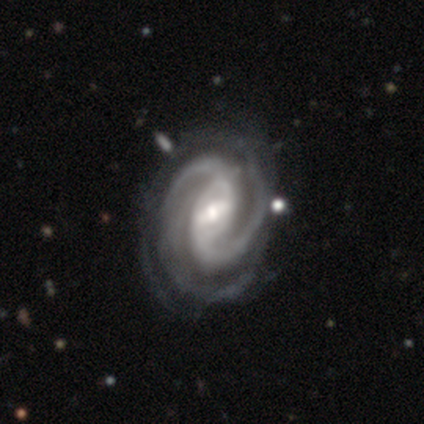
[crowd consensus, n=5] Smooth or featured? featured or disk (100%)
Edge-on disk? no (100%)
Bar? weak (60%)
Spiral arms? yes (100%)
Spiral winding? medium (60%)
Spiral arm count? 2 (100%)
Bulge size? moderate (40%, tied with small)
Merging? none (60%)